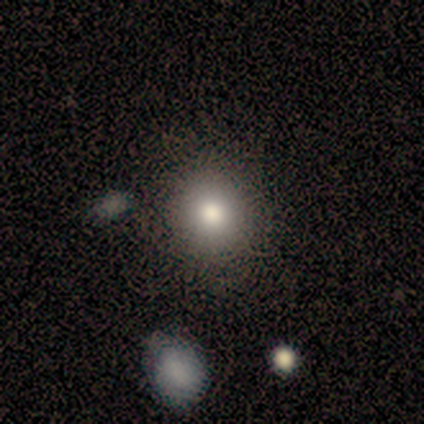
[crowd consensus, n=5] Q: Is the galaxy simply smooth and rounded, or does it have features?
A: smooth — 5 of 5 (100%).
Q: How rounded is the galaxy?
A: round — 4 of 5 (80%).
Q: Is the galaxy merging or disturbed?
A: none — 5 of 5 (100%).